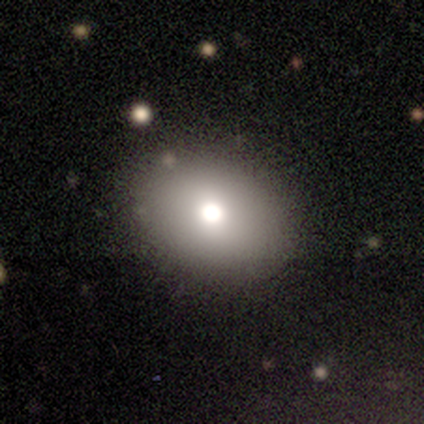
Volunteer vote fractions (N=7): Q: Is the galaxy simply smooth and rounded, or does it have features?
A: smooth — 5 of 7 (71%).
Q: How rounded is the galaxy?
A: in between — 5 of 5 (100%).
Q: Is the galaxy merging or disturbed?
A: none — 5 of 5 (100%).